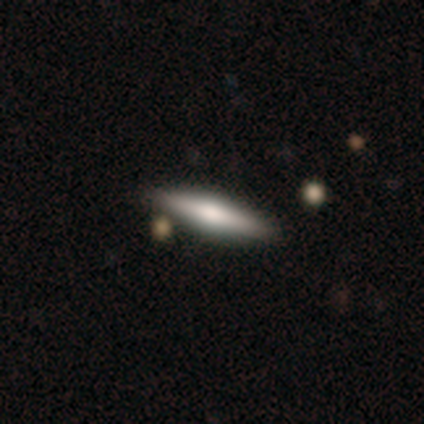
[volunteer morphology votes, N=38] smooth 55%, featured or disk 45%, star or artifact 0%. Down the decision tree: how rounded — cigar-shaped (95%); merging — none (92%).